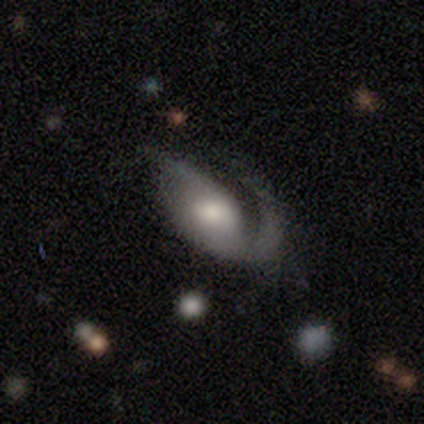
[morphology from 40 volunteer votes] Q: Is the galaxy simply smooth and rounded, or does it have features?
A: featured or disk — 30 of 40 (75%).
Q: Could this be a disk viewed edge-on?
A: no — 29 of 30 (97%).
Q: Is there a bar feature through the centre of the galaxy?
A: no — 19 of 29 (66%).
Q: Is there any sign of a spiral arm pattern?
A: yes — 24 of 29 (83%).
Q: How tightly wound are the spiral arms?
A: medium — 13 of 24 (54%).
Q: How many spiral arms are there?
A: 1 — 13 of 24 (54%).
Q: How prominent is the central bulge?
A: moderate — 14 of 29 (48%).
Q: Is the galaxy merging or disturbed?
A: major disturbance — 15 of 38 (39%).